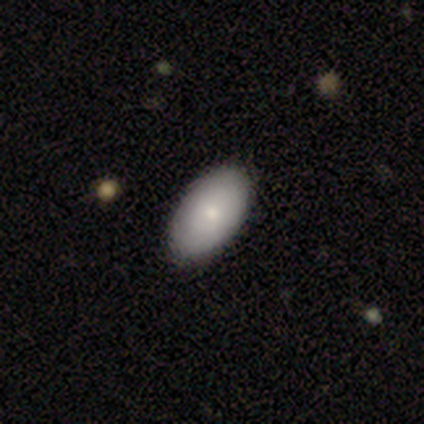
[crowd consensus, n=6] Smooth or featured? smooth (100%)
How rounded? in between (100%)
Merging? none (100%)